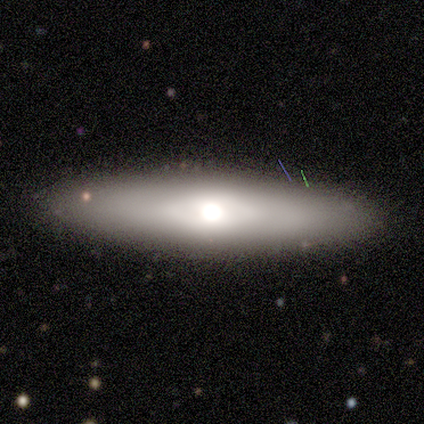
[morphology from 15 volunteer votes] A featured or disk galaxy (47%) viewed edge-on (86%) with a rounded central bulge (67%). Merging: none (85%).